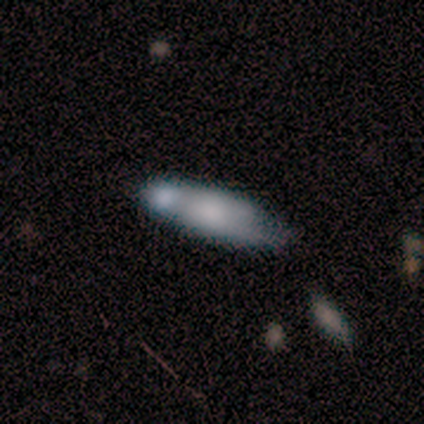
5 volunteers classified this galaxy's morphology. Smooth or featured? 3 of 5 (60%) said smooth. How rounded? 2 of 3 (67%) said in between. Merging? 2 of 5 (40%, tied with minor disturbance) said none.